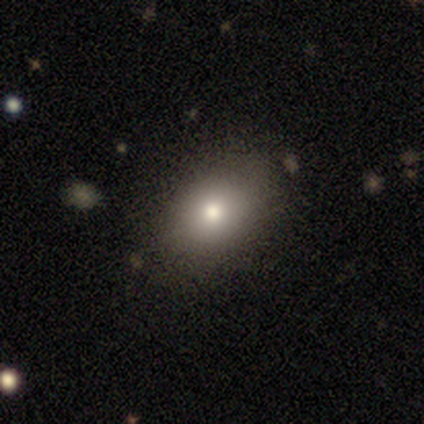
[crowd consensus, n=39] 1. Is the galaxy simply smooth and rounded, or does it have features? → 72% smooth, 15% star or artifact, 13% featured or disk.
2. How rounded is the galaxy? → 82% in between, 18% round, 0% cigar-shaped.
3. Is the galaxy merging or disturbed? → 82% none, 12% minor disturbance, 6% major disturbance, 0% merger.